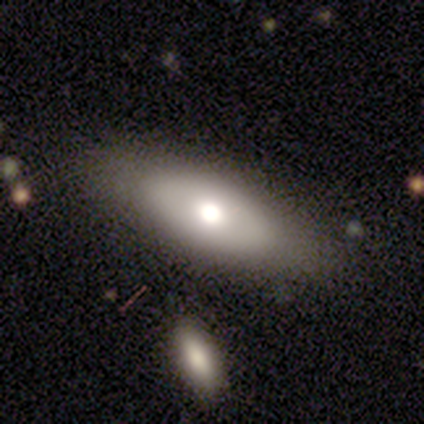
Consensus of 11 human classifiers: Smooth or featured: smooth — 64% (star or artifact — 27%)
How rounded: in between — 86% (cigar-shaped — 14%)
Merging: none — 50% (minor disturbance — 38%)